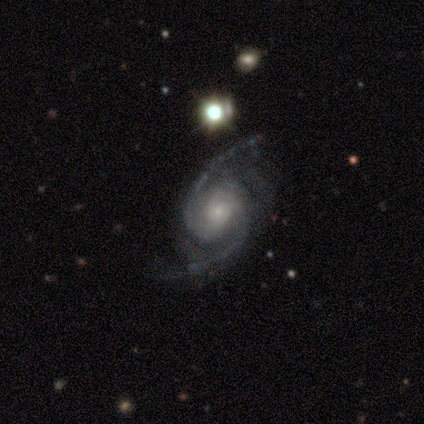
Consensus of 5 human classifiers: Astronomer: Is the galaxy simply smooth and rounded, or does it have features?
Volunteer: featured or disk — 80%.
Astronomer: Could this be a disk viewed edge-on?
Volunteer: no — 100%.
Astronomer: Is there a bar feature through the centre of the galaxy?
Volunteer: no — 75%.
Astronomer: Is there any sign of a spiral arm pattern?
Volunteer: yes — 100%.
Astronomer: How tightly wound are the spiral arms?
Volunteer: medium — 75%.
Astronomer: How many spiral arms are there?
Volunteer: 2 — 100%.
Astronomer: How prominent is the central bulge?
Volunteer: moderate — 50%, tied with small at 50%.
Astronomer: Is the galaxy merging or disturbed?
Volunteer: none — 100%.